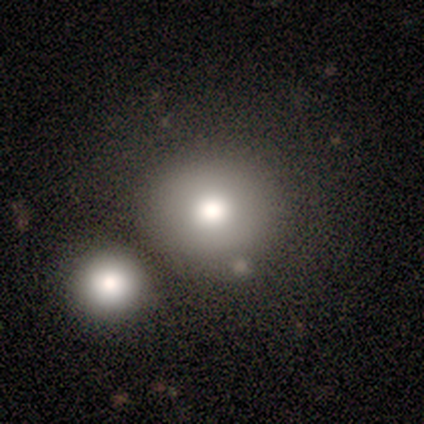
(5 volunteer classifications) Smooth or featured? smooth (60%)
How rounded? round (100%)
Merging? minor disturbance (40%, tied with merger)